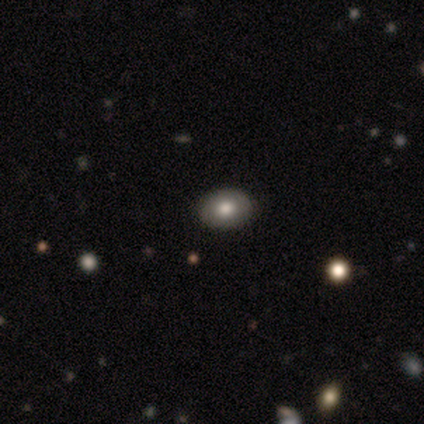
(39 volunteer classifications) Volunteers were most divided on "how rounded": in between: 78%, round: 22%, cigar-shaped: 0%. More confident: merging — none (92%); smooth or featured — smooth (82%).